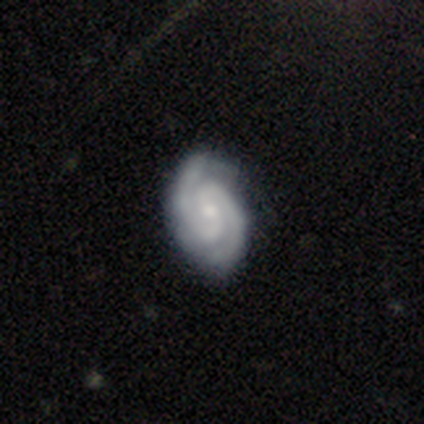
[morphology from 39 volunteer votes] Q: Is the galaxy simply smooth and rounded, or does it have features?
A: featured or disk — 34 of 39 (87%).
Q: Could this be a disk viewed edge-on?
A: no — 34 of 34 (100%).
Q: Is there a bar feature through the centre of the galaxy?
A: no — 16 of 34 (47%).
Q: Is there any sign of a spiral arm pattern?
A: yes — 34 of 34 (100%).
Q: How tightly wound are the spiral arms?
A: tight — 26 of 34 (76%).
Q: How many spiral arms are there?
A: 2 — 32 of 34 (94%).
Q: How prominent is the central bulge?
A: moderate — 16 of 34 (47%).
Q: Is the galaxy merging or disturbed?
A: none — 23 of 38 (61%).